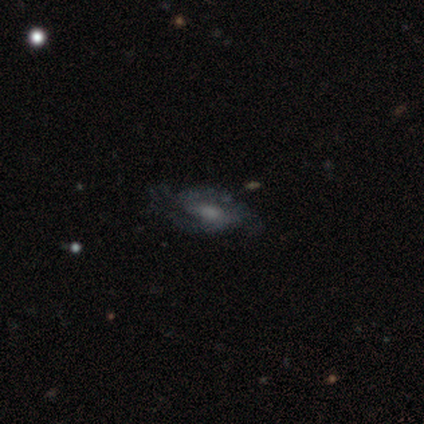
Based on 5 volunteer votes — featured or disk 100%, smooth 0%, star or artifact 0%. Down the decision tree: edge-on disk — no (100%); bar — no (60%); spiral arms — yes (80%); spiral arm count — 2 (75%); spiral winding — tight (75%); bulge size — small (40%, tied with none); merging — none (40%, tied with major disturbance).